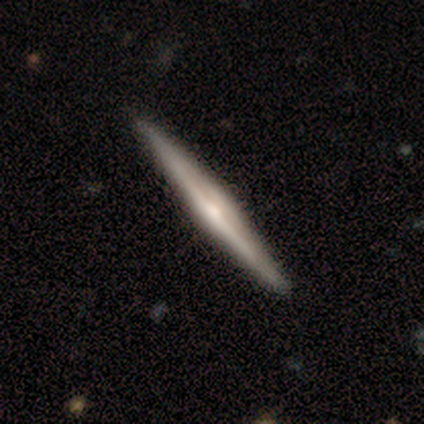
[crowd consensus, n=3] Overall: featured or disk (100%). Edge-on disk: yes (100%). Edge-on bulge: rounded (67%; none 33%). Merging: none (67%; minor disturbance 33%).